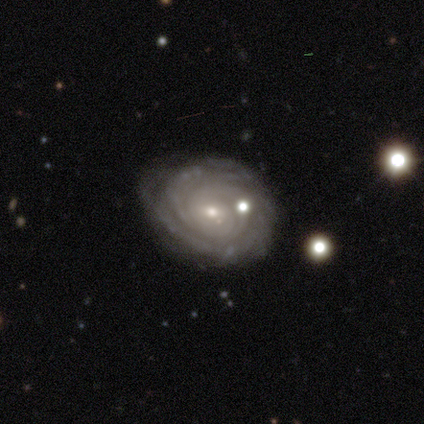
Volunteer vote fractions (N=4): A featured or disk galaxy (100%) with no bar (100%), tight (100%) spiral arms (100%) and a small central bulge (50%).

Vote fractions:
- Smooth or featured? featured or disk: 100% / smooth: 0% / star or artifact: 0%
- Edge-on disk? no: 100% / yes: 0%
- Bar? no: 100% / strong: 0% / weak: 0%
- Spiral arms? yes: 100% / no: 0%
- Spiral winding? tight: 100% / medium: 0% / loose: 0%
- Spiral arm count? can't tell: 100% / 1: 0% / 2: 0% / 3: 0% / 4: 0% / more than 4: 0%
- Bulge size? small: 50% / large: 25% / moderate: 25% / dominant: 0% / none: 0%
- Merging? none: 75% / merger: 25% / minor disturbance: 0% / major disturbance: 0%